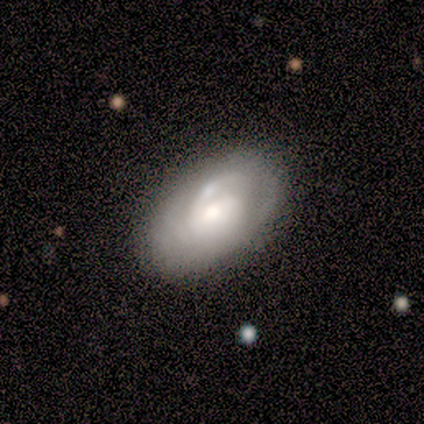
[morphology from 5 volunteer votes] Q: Smooth or featured?
A: featured or disk (80%); runner-up: smooth (20%)
Q: Edge-on disk?
A: no (100%)
Q: Bar?
A: weak (75%); runner-up: no (25%)
Q: Spiral arms?
A: yes (100%)
Q: Spiral winding?
A: tight (50%); tied with: medium (50%)
Q: Spiral arm count?
A: 3 (50%); runner-up: 2 (25%)
Q: Bulge size?
A: moderate (50%); runner-up: large (25%)
Q: Merging?
A: none (100%)